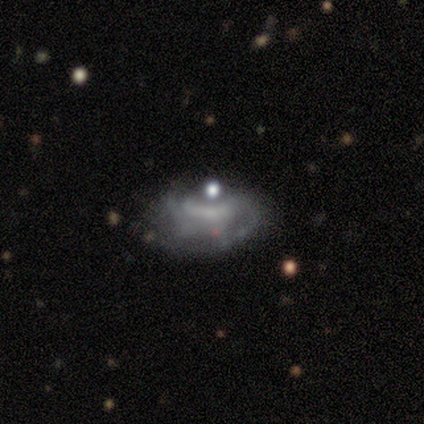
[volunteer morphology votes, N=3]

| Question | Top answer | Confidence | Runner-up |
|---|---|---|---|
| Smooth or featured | featured or disk | 67% | smooth (33%) |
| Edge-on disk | no | 100% | — |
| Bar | no | 100% | — |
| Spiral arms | yes | 50% | tied: no (50%) |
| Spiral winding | tight | 100% | — |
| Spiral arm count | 3 | 100% | — |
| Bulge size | moderate | 50% | tied: none (50%) |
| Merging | none | 67% | merger (33%) |